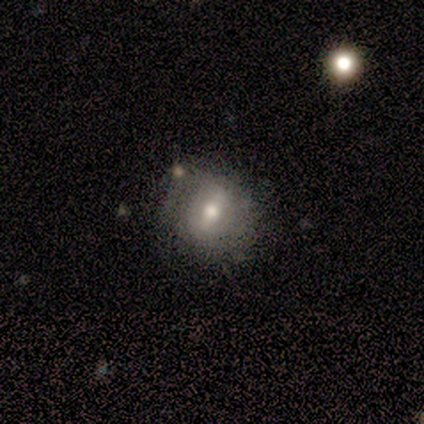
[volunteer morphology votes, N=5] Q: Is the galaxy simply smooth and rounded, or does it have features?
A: featured or disk — 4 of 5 (80%).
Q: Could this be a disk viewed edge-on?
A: no — 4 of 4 (100%).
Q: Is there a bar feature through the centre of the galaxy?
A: strong — 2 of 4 (50%).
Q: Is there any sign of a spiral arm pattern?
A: no — 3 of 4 (75%).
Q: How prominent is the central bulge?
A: moderate — 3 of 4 (75%).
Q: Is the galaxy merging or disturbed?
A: none — 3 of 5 (60%).